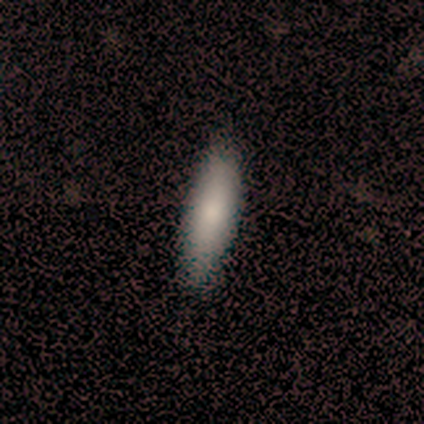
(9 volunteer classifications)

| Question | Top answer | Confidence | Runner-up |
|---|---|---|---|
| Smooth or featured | smooth | 89% | star or artifact (11%) |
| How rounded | cigar-shaped | 75% | in between (25%) |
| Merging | none | 88% | minor disturbance (12%) |